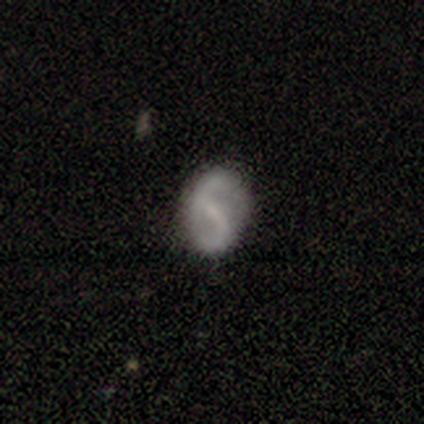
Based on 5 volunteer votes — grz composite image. It shows a featured or disk galaxy (100%) with a weak bar (80%), 2 (80%) tight (40%, tied with loose) spiral arms (100%) and a small central bulge (60%). Merging: none (100%).